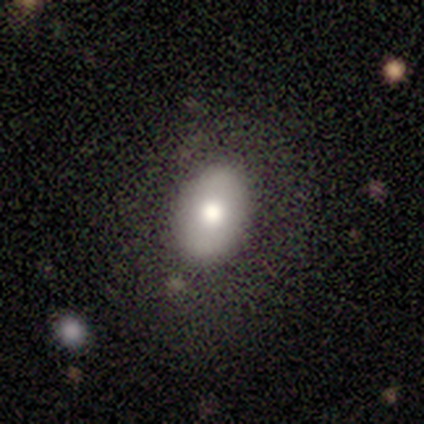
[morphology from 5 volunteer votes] smooth-or-featured: smooth: 80% | star or artifact: 20% | featured or disk: 0%
  how-rounded: in between: 100% | round: 0% | cigar-shaped: 0%
  merging: none: 75% | minor disturbance: 25% | major disturbance: 0% | merger: 0%